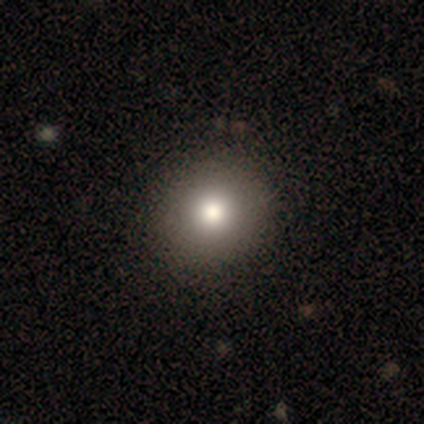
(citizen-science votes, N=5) A smooth galaxy with no disk features (60%) that is round (100%). Merging: none (100%).